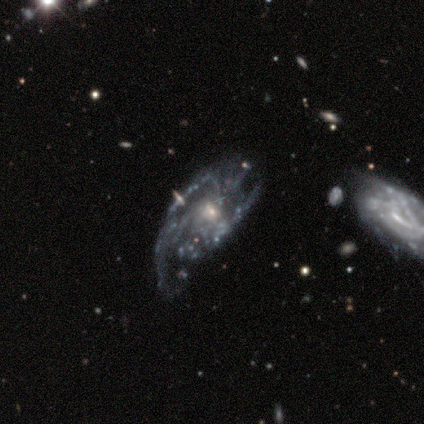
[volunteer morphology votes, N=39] Q: Smooth or featured?
A: featured or disk (92%); runner-up: star or artifact (5%)
Q: Edge-on disk?
A: no (97%); runner-up: yes (3%)
Q: Bar?
A: no (74%); runner-up: weak (23%)
Q: Spiral arms?
A: yes (77%); runner-up: no (23%)
Q: Spiral winding?
A: tight (44%); runner-up: medium (33%)
Q: Spiral arm count?
A: can't tell (41%); runner-up: 3 (33%)
Q: Bulge size?
A: small (54%); runner-up: moderate (43%)
Q: Merging?
A: none (41%); runner-up: major disturbance (27%)